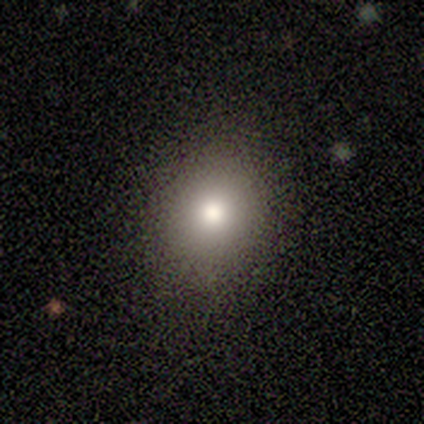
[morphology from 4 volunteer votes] A smooth galaxy with no disk features (75%) that is round (67%).

Vote fractions:
- Smooth or featured? smooth: 75% / star or artifact: 25% / featured or disk: 0%
- How rounded? round: 67% / in between: 33% / cigar-shaped: 0%
- Merging? none: 100% / minor disturbance: 0% / major disturbance: 0% / merger: 0%